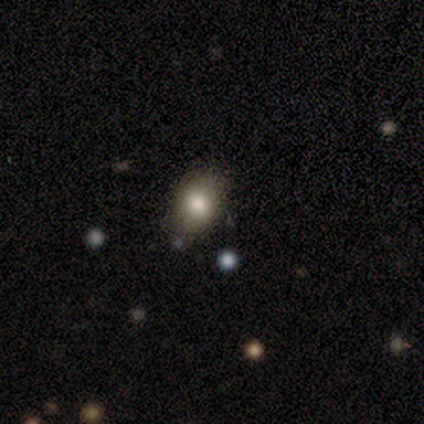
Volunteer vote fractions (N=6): Smooth or featured? 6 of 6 (100%) said smooth. How rounded? 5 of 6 (83%) said in between. Merging? 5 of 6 (83%) said none.